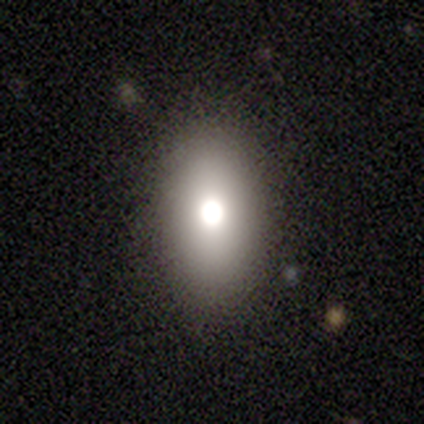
Smooth or featured?
  - featured or disk: 75% *
  - smooth: 25%
  - star or artifact: 0%
Edge-on disk?
  - no: 100% *
  - yes: 0%
Bar?
  - no: 67% *
  - strong: 33%
  - weak: 0%
Spiral arms?
  - no: 100% *
  - yes: 0%
Bulge size?
  - moderate: 100% *
  - dominant: 0%
  - large: 0%
  - small: 0%
  - none: 0%
Merging?
  - none: 50% * (tied)
  - minor disturbance: 50% * (tied)
  - major disturbance: 0%
  - merger: 0%